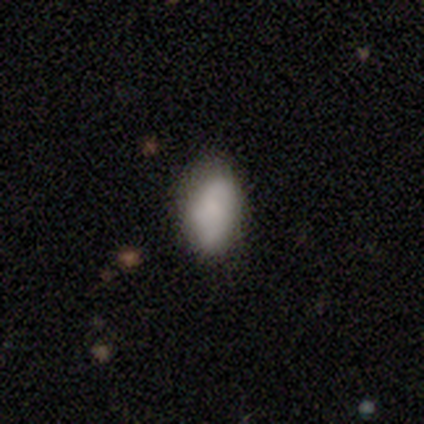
Overall: smooth (86%). How rounded: in between (100%). Merging: none (71%).